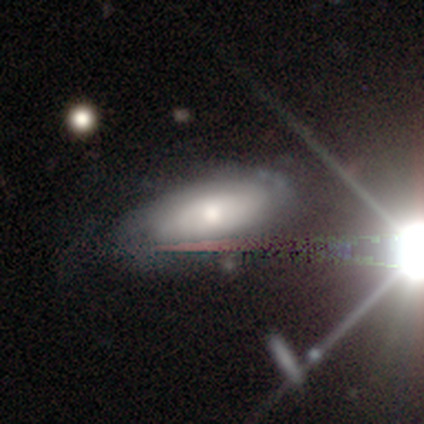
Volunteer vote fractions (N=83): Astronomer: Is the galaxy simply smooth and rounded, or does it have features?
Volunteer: featured or disk — 45% (runner-up: smooth, 37%).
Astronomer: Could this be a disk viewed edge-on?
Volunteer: no — 86%.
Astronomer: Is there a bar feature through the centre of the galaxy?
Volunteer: no — 84%.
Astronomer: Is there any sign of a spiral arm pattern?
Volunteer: yes — 56% (runner-up: no, 44%).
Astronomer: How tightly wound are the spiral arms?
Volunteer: tight — 78%.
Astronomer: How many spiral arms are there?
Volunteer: can't tell — 78%.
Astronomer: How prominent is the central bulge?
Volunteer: moderate — 47% (runner-up: small, 44%).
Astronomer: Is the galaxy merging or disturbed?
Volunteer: none — 63%.